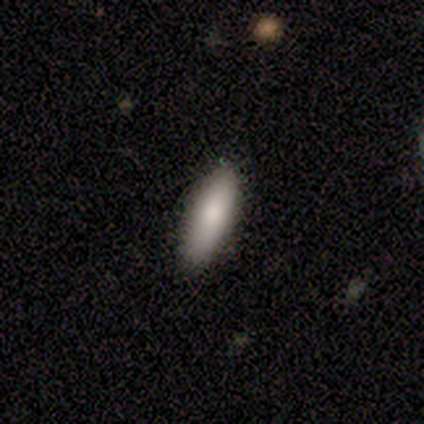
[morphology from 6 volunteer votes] Smooth or featured? smooth (100%)
How rounded? cigar-shaped (67%)
Merging? none (67%)